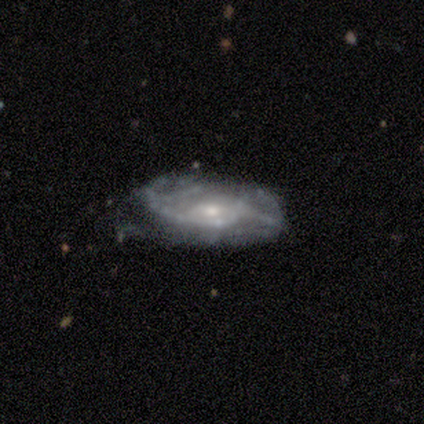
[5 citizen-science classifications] Volunteers were most divided on "merging" (2-way tie): none: 40%, minor disturbance: 40%, major disturbance: 20%, merger: 0%. More confident: edge-on disk — no (100%); bar — no (100%); spiral arms — yes (100%); spiral winding — medium (67%); spiral arm count — can't tell (67%); bulge size — small (67%); smooth or featured — featured or disk (60%).